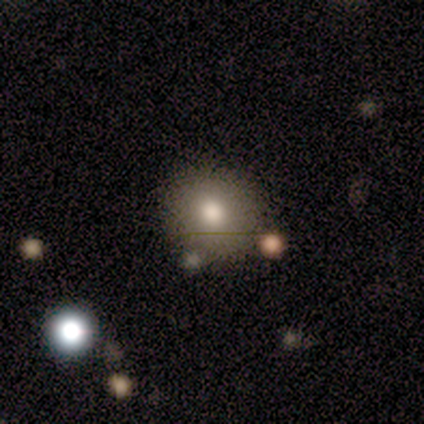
Overall: smooth (100%). How rounded: round (100%). Merging: merger (100%).